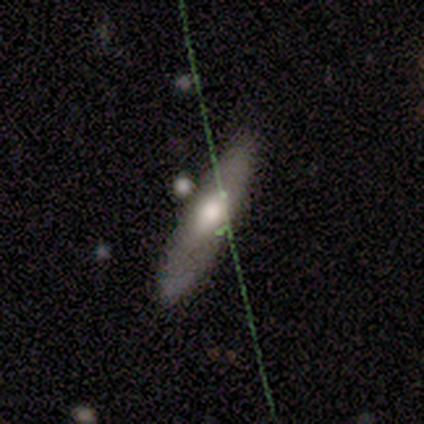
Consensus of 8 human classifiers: This appears to be a smooth galaxy with no disk features (62%) that is cigar-shaped (100%). Merging: none (88%).